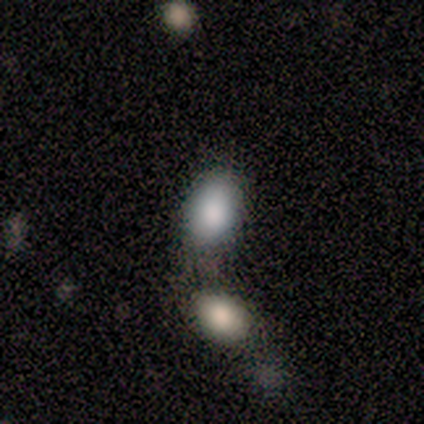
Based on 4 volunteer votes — This appears to be a smooth galaxy with no disk features (100%) that is in between round and cigar-shaped (75%). Merging: none (50%).